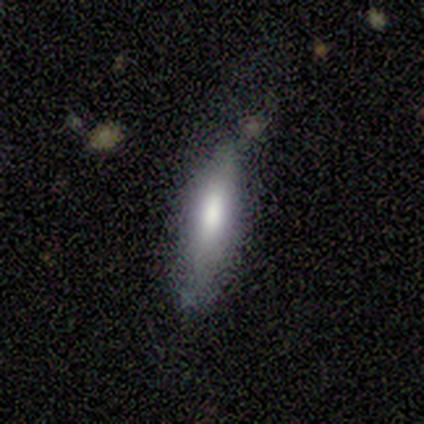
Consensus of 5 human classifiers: smooth-or-featured: smooth: 100% | featured or disk: 0% | star or artifact: 0%
  how-rounded: cigar-shaped: 60% | in between: 40% | round: 0%
  merging: none: 40% (tied) | minor disturbance: 40% (tied) | major disturbance: 20% | merger: 0%